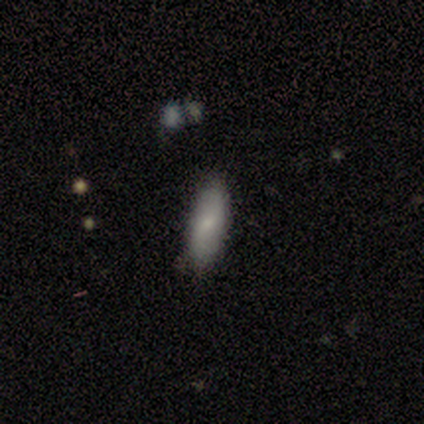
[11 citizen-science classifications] A smooth galaxy with no disk features (36%, tied with featured or disk) that is in between round and cigar-shaped (75%).

Vote fractions:
- Smooth or featured? smooth: 36% (tied) / featured or disk: 36% (tied) / star or artifact: 27%
- How rounded? in between: 75% / cigar-shaped: 25% / round: 0%
- Merging? none: 62% / minor disturbance: 38% / major disturbance: 0% / merger: 0%